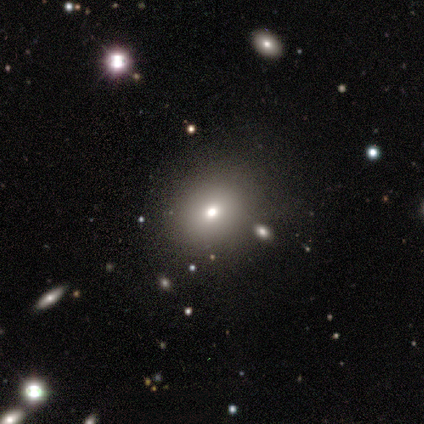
This is likely a smooth galaxy (60%). How rounded: clearly round (100%). Merging: possibly none (50%).